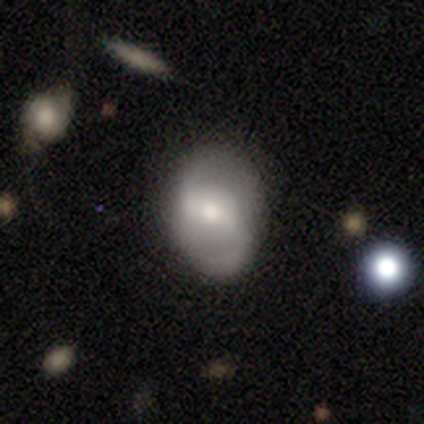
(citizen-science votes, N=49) Smooth or featured?
  - featured or disk: 59% *
  - smooth: 35%
  - star or artifact: 6%
Edge-on disk?
  - no: 97% *
  - yes: 3%
Bar?
  - weak: 50% *
  - strong: 29%
  - no: 21%
Spiral arms?
  - yes: 79% *
  - no: 21%
Spiral winding?
  - loose: 68% *
  - medium: 32%
  - tight: 0%
Spiral arm count?
  - 2: 91% *
  - 1: 9%
  - 3: 0%
  - 4: 0%
  - more than 4: 0%
  - can't tell: 0%
Bulge size?
  - moderate: 46% *
  - small: 43%
  - large: 7%
  - none: 4%
  - dominant: 0%
Merging?
  - none: 74% *
  - minor disturbance: 22%
  - major disturbance: 4%
  - merger: 0%